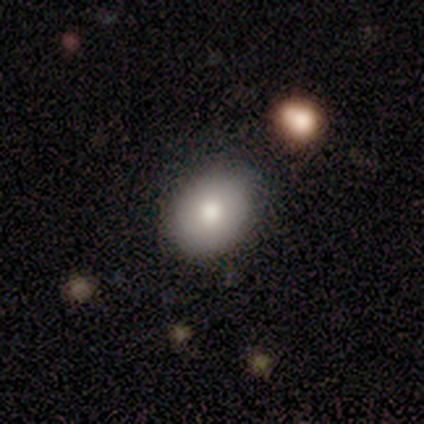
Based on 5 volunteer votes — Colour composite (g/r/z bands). It shows a smooth galaxy with no disk features (60%) that is round (67%). Merging: none (80%).